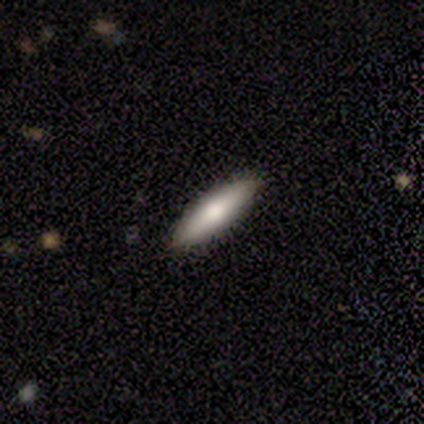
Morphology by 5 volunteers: smooth-or-featured: smooth: 60% | featured or disk: 20% | star or artifact: 20%
  how-rounded: cigar-shaped: 67% | in between: 33% | round: 0%
  merging: none: 75% | minor disturbance: 25% | major disturbance: 0% | merger: 0%